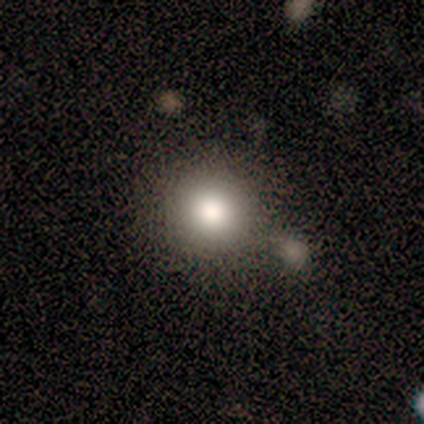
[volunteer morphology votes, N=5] Overall: smooth (80%). How rounded: round (75%). Merging: none (75%).